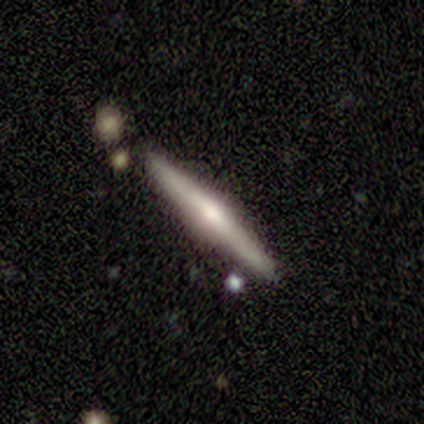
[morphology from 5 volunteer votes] This appears to be a smooth galaxy with no disk features (60%) that is cigar-shaped (100%). Merging: none (80%).